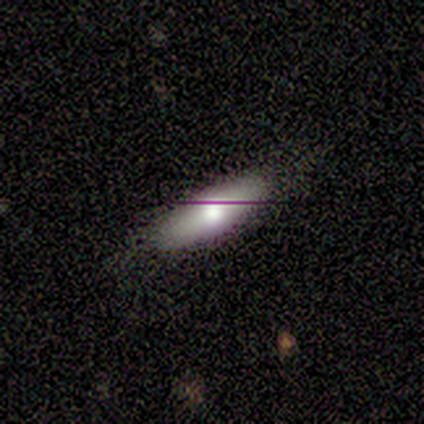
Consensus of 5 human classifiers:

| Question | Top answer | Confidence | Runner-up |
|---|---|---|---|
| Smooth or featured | smooth | 60% | featured or disk (20%) |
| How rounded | round | 33% | tied: in between (33%), cigar-shaped (33%) |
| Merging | none | 50% | minor disturbance (25%) |